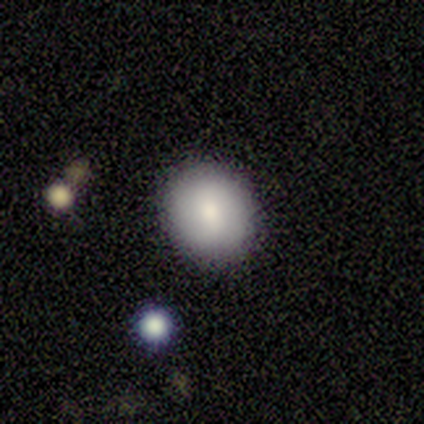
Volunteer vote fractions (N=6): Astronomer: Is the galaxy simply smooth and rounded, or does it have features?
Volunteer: smooth — 83%.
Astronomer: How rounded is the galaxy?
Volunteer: round — 100%.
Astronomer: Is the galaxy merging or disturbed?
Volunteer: none — 100%.